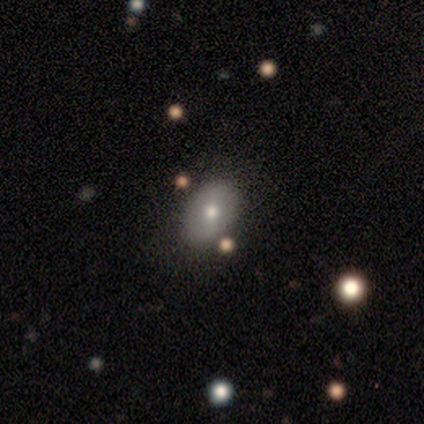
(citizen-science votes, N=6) Q: Smooth or featured?
A: smooth (50%); tied with: featured or disk (50%)
Q: How rounded?
A: in between (100%)
Q: Merging?
A: none (83%); runner-up: minor disturbance (17%)